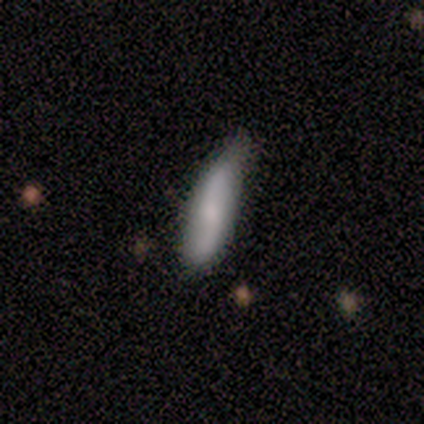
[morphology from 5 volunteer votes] smooth 60%, featured or disk 40%, star or artifact 0%. Down the decision tree: how rounded — cigar-shaped (67%); merging — minor disturbance (60%).